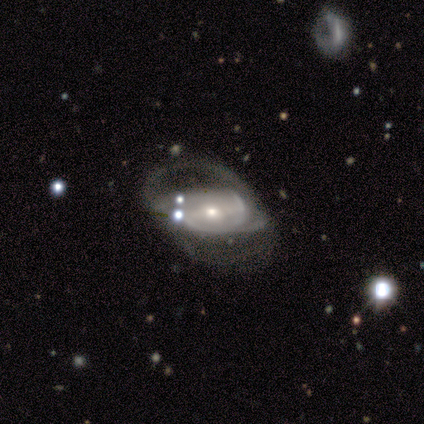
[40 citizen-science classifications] A featured or disk galaxy (72%) with a strong bar (41%), medium (62%) spiral arms (59%) and a small central bulge (63%). Merging: major disturbance (54%).